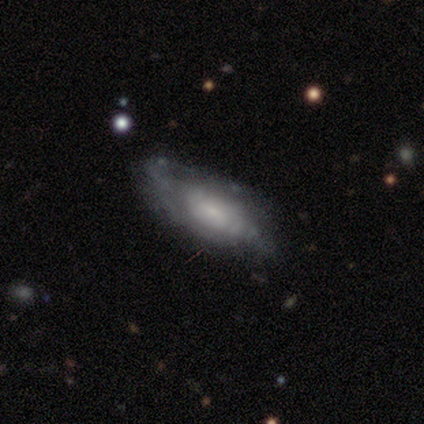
Smooth or featured?
  - featured or disk: 78% *
  - smooth: 22%
  - star or artifact: 0%
Edge-on disk?
  - no: 97% *
  - yes: 3%
Bar?
  - no: 60% *
  - weak: 40%
  - strong: 0%
Spiral arms?
  - yes: 73% *
  - no: 27%
Spiral winding?
  - tight: 41% *
  - medium: 36%
  - loose: 23%
Spiral arm count?
  - can't tell: 59% *
  - 2: 14%
  - 1: 9%
  - 3: 9%
  - 4: 9%
  - more than 4: 0%
Bulge size?
  - small: 70% *
  - moderate: 17%
  - large: 7%
  - none: 7%
  - dominant: 0%
Merging?
  - none: 55% *
  - minor disturbance: 22%
  - major disturbance: 22%
  - merger: 0%